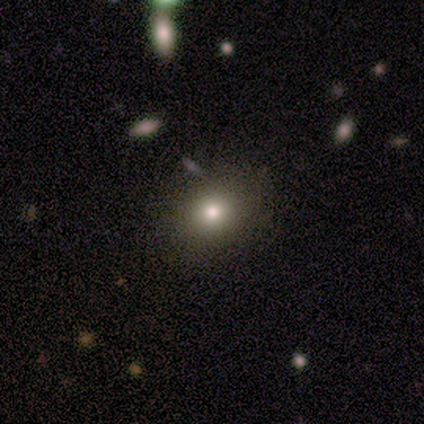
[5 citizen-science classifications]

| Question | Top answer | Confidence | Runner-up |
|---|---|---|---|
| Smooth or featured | smooth | 40% | tied: star or artifact (40%) |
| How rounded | round | 50% | tied: in between (50%) |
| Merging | none | 100% | — |